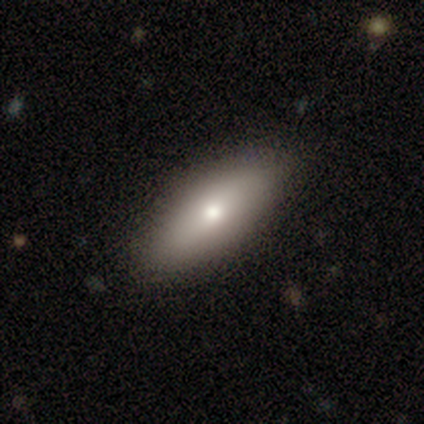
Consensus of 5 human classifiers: Smooth or featured?
  - smooth: 100% *
  - featured or disk: 0%
  - star or artifact: 0%
How rounded?
  - in between: 100% *
  - round: 0%
  - cigar-shaped: 0%
Merging?
  - none: 80% *
  - major disturbance: 20%
  - minor disturbance: 0%
  - merger: 0%